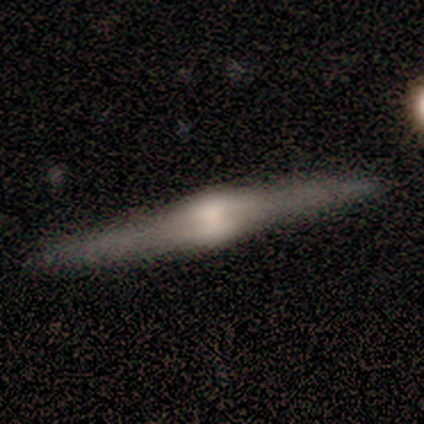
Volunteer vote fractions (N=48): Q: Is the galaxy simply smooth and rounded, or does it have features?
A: featured or disk — 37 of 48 (77%).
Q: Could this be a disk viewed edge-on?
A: yes — 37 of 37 (100%).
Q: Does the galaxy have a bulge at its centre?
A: rounded — 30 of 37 (81%).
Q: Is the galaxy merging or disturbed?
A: none — 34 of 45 (76%).